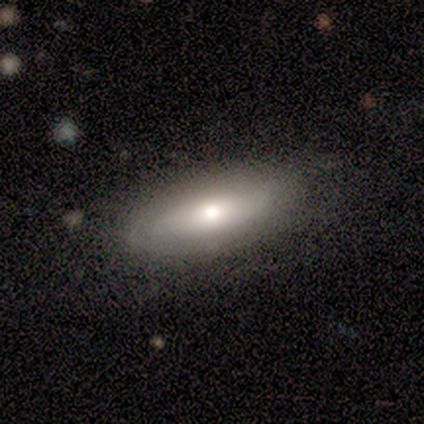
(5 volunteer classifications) featured or disk 60%, smooth 20%, star or artifact 20%. Down the decision tree: edge-on disk — no (67%); bar — no (100%); spiral arms — yes (50%, tied with no); spiral arm count — can't tell (100%); spiral winding — medium (100%); bulge size — moderate (50%, tied with none); merging — none (50%).